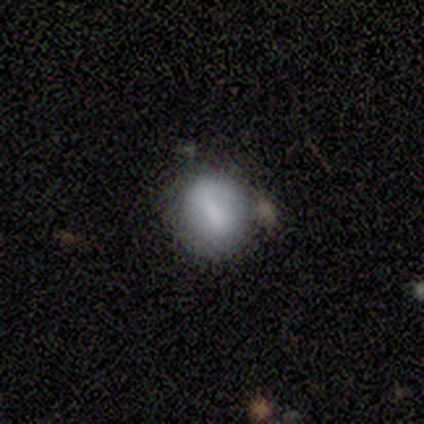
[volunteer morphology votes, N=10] smooth_or_featured: smooth (p=0.70) [alt: featured or disk p=0.30]
how_rounded: round (p=1.00)
merging: none (p=0.80) [alt: major disturbance p=0.10]